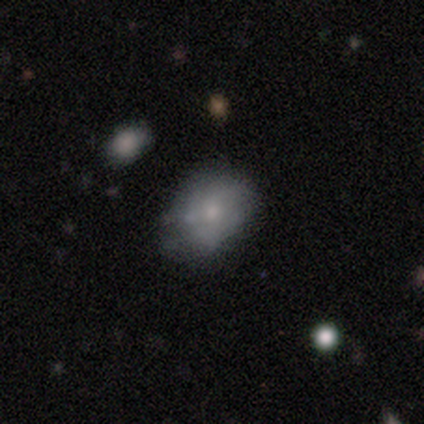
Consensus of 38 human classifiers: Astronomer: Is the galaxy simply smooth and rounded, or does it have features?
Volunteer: smooth — 53% (runner-up: featured or disk, 42%).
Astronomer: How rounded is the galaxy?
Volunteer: in between — 80%.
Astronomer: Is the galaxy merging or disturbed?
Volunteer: none — 33% (runner-up: merger, 19%).